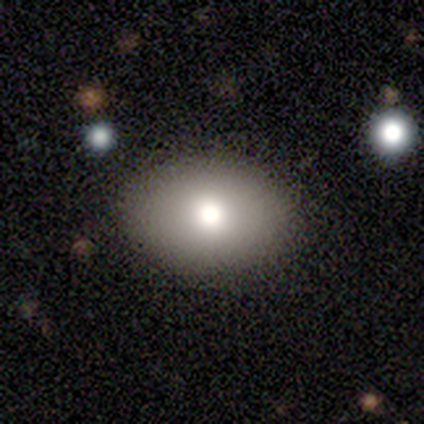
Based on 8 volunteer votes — A smooth galaxy with no disk features (88%) that is in between round and cigar-shaped (86%). Merging: none (86%).